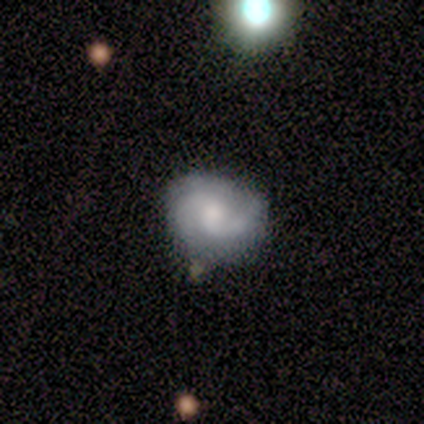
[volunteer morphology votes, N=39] Volunteers were most divided on "spiral winding": medium: 41%, loose: 36%, tight: 23%. Remaining: spiral arms — yes (100%); edge-on disk — no (92%); spiral arm count — 2 (77%); smooth or featured — featured or disk (62%); bar — no (59%); merging — none (55%); bulge size — moderate (45%).